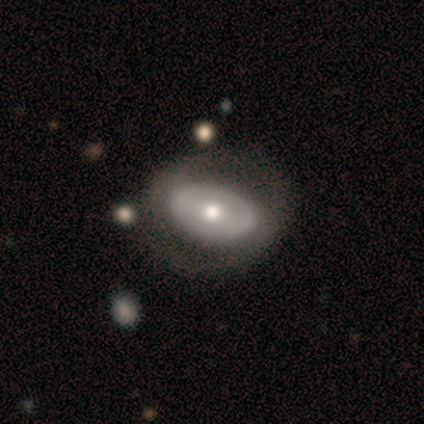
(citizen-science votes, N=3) This is clearly a featured or disk galaxy (100%). It is likely not viewed edge-on (67%). Bar: possibly weak (50%, tied with no). Spiral arm pattern: clearly no (100%). Central bulge: clearly moderate (100%). Merging: clearly none (100%).